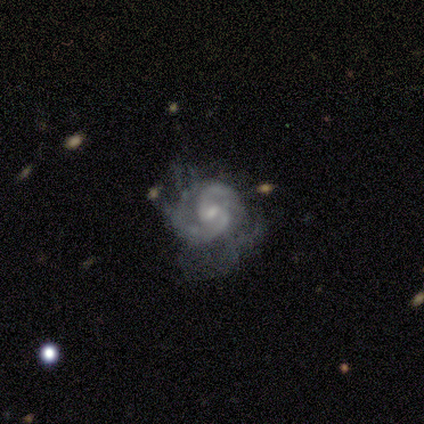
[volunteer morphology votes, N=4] Q: Smooth or featured?
A: featured or disk (100%)
Q: Edge-on disk?
A: no (100%)
Q: Bar?
A: weak (100%)
Q: Spiral arms?
A: yes (100%)
Q: Spiral winding?
A: medium (50%); runner-up: tight (25%)
Q: Spiral arm count?
A: 2 (100%)
Q: Bulge size?
A: moderate (50%); tied with: small (50%)
Q: Merging?
A: none (50%); tied with: minor disturbance (50%)